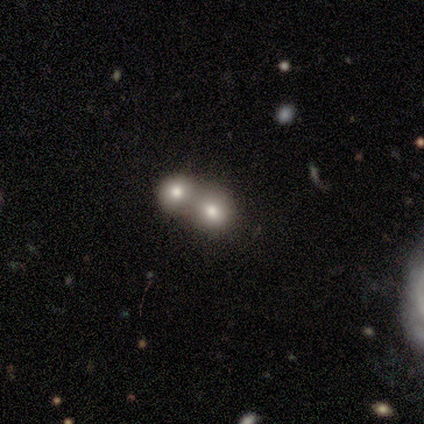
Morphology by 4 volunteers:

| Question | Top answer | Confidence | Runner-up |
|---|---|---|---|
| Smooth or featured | smooth | 75% | featured or disk (25%) |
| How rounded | round | 67% | in between (33%) |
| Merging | merger | 50% | none (25%) |